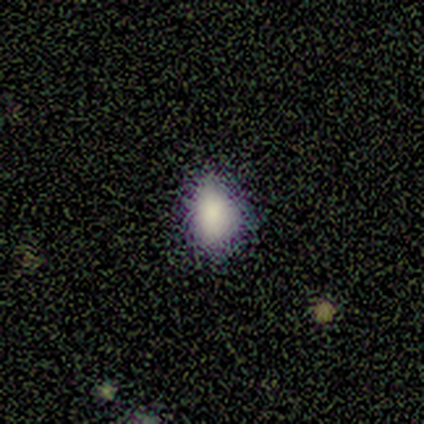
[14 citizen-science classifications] A smooth galaxy with no disk features (86%) that is in between round and cigar-shaped (67%).

Vote fractions:
- Smooth or featured? smooth: 86% / star or artifact: 14% / featured or disk: 0%
- How rounded? in between: 67% / round: 33% / cigar-shaped: 0%
- Merging? none: 58% / minor disturbance: 42% / major disturbance: 0% / merger: 0%